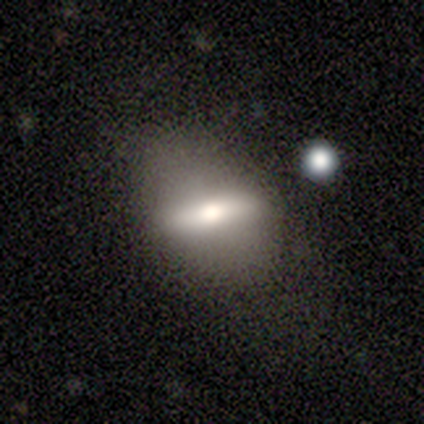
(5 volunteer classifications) Volunteers were most divided on "edge-on disk": yes: 67%, no: 33%. More confident: edge-on bulge — rounded (100%); merging — none (75%); smooth or featured — featured or disk (60%).